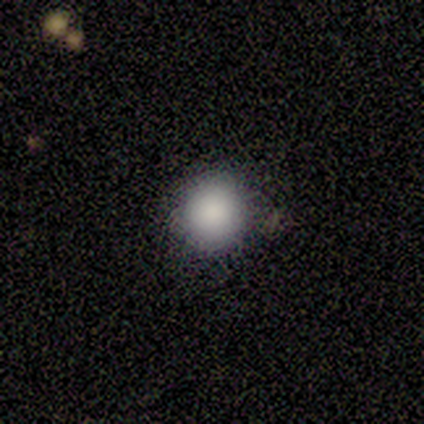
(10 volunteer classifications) Smooth or featured: smooth — 100%
How rounded: round — 90% (in between — 10%)
Merging: none — 100%